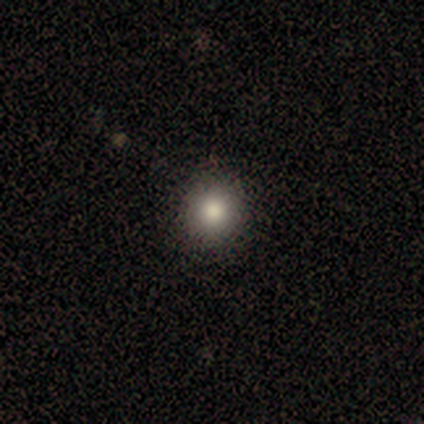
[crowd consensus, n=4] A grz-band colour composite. It shows a smooth galaxy with no disk features (100%) that is round (100%). Merging: none (100%).